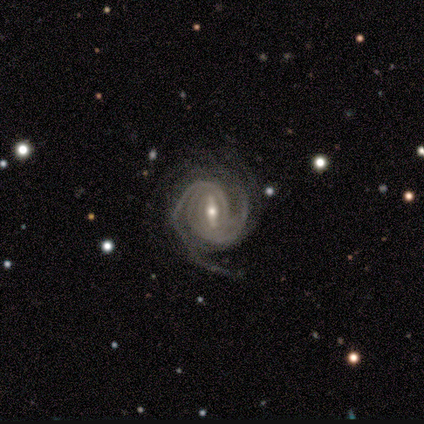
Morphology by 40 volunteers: This is clearly a featured or disk galaxy (98%). It is clearly not viewed edge-on (100%). Bar: likely strong (69%). Spiral arm pattern: clearly yes (100%). Spiral arm count: marginally 2 (38%). Spiral winding: likely tight (79%). Central bulge: possibly moderate (49%). Merging: likely none (60%).